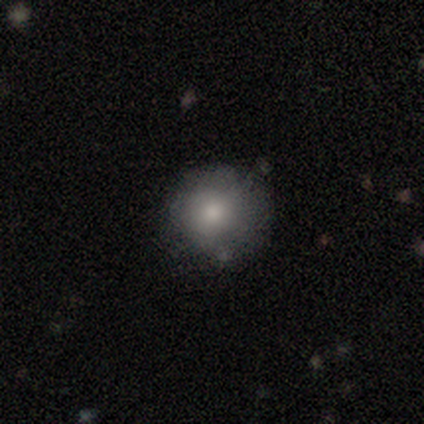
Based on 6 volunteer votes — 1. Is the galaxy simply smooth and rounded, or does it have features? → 100% smooth, 0% featured or disk, 0% star or artifact.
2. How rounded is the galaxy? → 67% round, 33% in between, 0% cigar-shaped.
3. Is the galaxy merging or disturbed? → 67% none, 33% minor disturbance, 0% major disturbance, 0% merger.